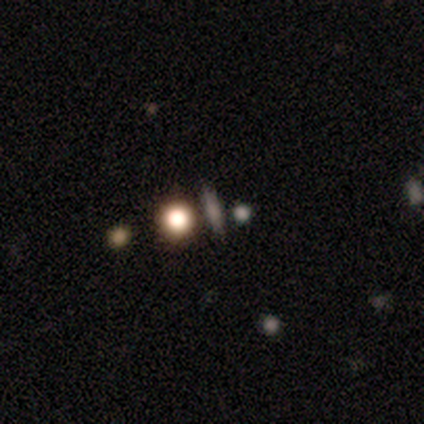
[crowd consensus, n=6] Smooth or featured? 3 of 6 (50%) said star or artifact.